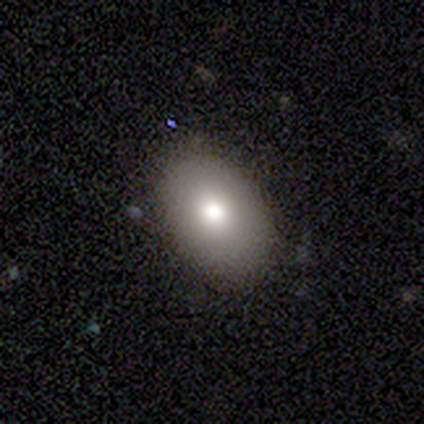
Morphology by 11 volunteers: smooth-or-featured: smooth: 91% | featured or disk: 9% | star or artifact: 0%
  how-rounded: in between: 100% | round: 0% | cigar-shaped: 0%
  merging: none: 91% | minor disturbance: 9% | major disturbance: 0% | merger: 0%